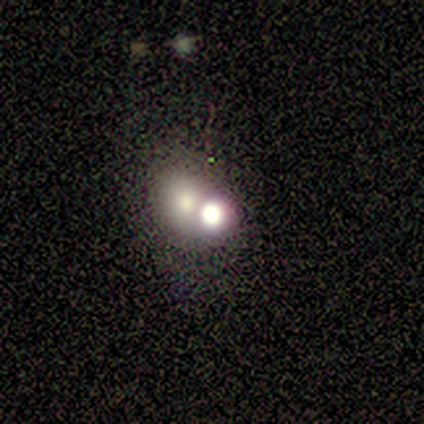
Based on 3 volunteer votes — Smooth or featured?
  - featured or disk: 100% *
  - smooth: 0%
  - star or artifact: 0%
Edge-on disk?
  - no: 100% *
  - yes: 0%
Bar?
  - no: 100% *
  - strong: 0%
  - weak: 0%
Spiral arms?
  - no: 100% *
  - yes: 0%
Bulge size?
  - large: 67% *
  - dominant: 33%
  - moderate: 0%
  - small: 0%
  - none: 0%
Merging?
  - merger: 67% *
  - none: 33%
  - minor disturbance: 0%
  - major disturbance: 0%